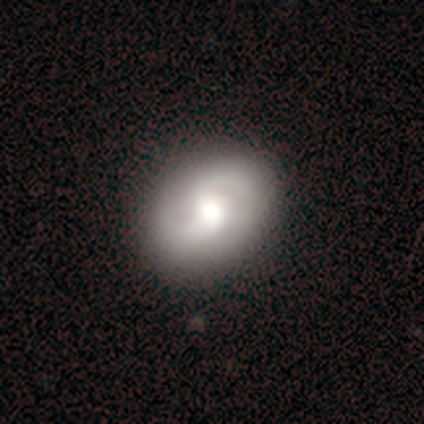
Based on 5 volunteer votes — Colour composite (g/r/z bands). It shows a smooth galaxy with no disk features (40%, tied with star or artifact) that is in between round and cigar-shaped (100%). Merging: minor disturbance (67%).